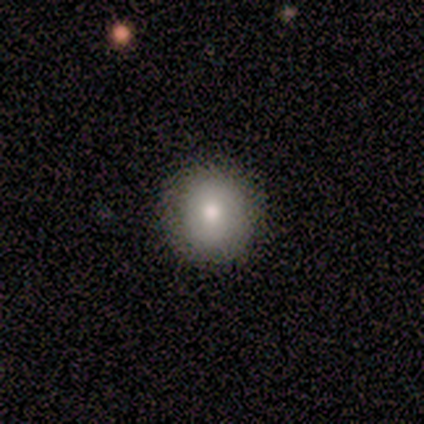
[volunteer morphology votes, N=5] Overall: smooth (80%). How rounded: round (100%). Merging: none (100%).